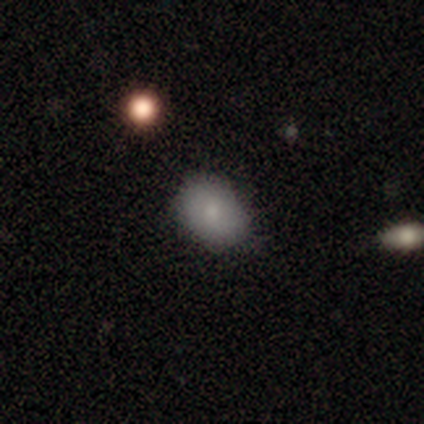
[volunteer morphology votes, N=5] Smooth or featured: smooth — 80% (star or artifact — 20%)
How rounded: in between — 100%
Merging: minor disturbance — 50% (none — 25%)